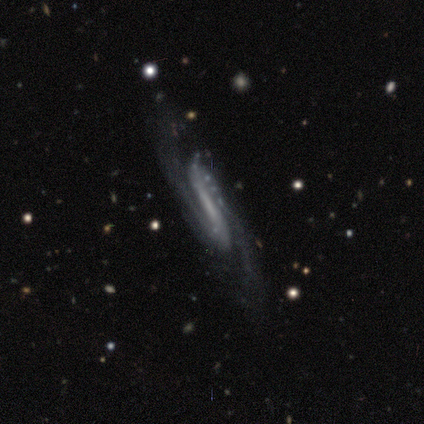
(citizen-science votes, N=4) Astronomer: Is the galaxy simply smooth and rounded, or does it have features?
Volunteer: featured or disk — 100%.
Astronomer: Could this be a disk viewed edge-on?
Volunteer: no — 100%.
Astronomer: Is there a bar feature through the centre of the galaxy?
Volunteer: strong — 75%.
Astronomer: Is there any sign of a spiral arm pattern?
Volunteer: yes — 100%.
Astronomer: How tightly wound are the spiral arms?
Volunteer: medium — 75%.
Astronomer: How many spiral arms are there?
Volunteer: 2 — 100%.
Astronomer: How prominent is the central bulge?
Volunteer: none — 75%.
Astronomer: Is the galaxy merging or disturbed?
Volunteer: none — 100%.